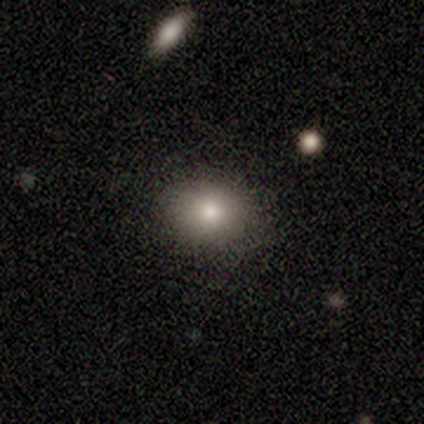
Smooth or featured? 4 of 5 (80%) said smooth. How rounded? 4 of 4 (100%) said in between. Merging? 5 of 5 (100%) said none.